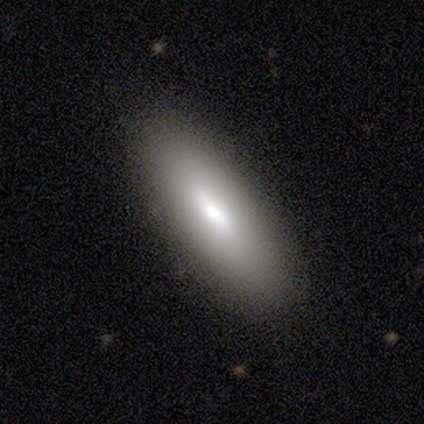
Q: Smooth or featured?
A: smooth (50%); tied with: featured or disk (50%)
Q: How rounded?
A: in between (100%)
Q: Merging?
A: none (100%)